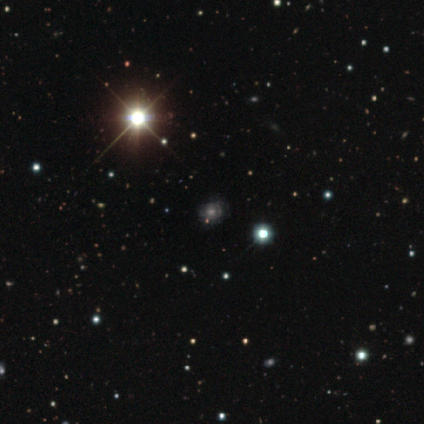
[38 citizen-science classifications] A star or artifact, not a galaxy (68%).

Vote fractions:
- Smooth or featured? star or artifact: 68% / featured or disk: 24% / smooth: 8%